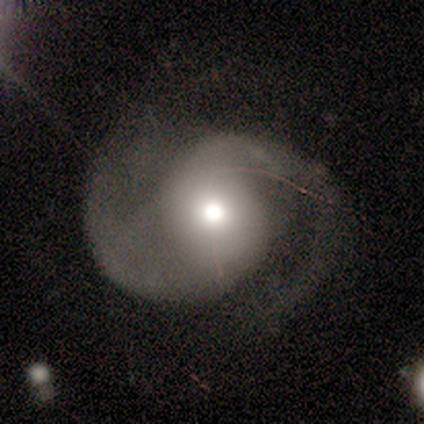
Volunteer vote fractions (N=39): smooth_or_featured: featured or disk (p=0.85) [alt: star or artifact p=0.10]
disk_edge_on: no (p=1.00)
bar: no (p=0.70) [alt: weak p=0.21]
has_spiral_arms: yes (p=0.94) [alt: no p=0.06]
spiral_winding: medium (p=0.65) [alt: loose p=0.29]
spiral_arm_count: 2 (p=0.94) [alt: 3 p=0.03]
bulge_size: moderate (p=0.73) [alt: large p=0.18]
merging: none (p=0.54) [alt: major disturbance p=0.29]